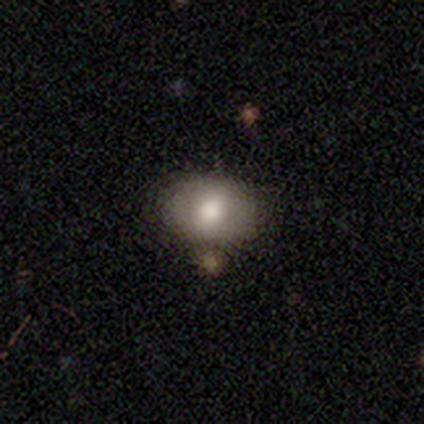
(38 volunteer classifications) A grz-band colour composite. It shows a smooth galaxy with no disk features (71%) that is in between round and cigar-shaped (63%). Merging: none (69%).